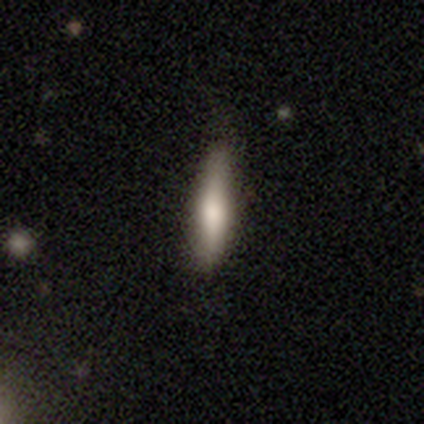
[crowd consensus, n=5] smooth_or_featured: smooth (p=0.60) [alt: featured or disk p=0.40]
how_rounded: cigar-shaped (p=1.00)
merging: none (p=0.60) [alt: minor disturbance p=0.40]